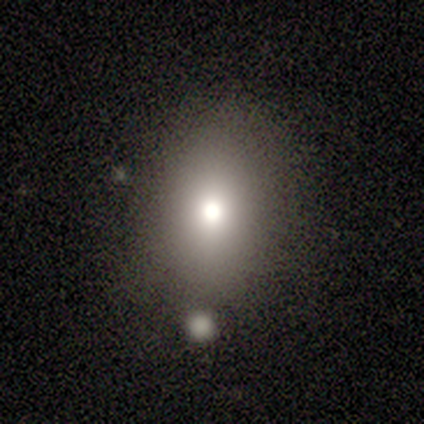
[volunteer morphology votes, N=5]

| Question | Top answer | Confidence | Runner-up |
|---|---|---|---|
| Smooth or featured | smooth | 80% | star or artifact (20%) |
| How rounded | round | 50% | in between (25%) |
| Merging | none | 100% | — |